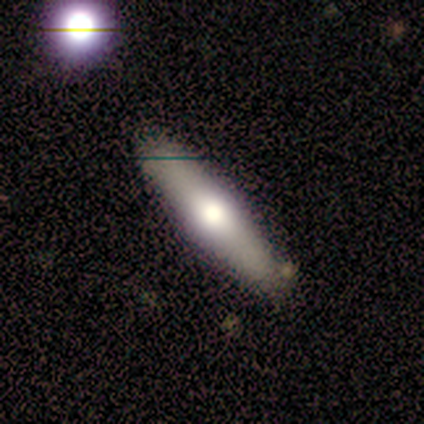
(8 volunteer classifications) Smooth or featured? 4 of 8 (50%, tied with featured or disk) said smooth. How rounded? 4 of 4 (100%) said cigar-shaped. Merging? 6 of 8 (75%) said none.